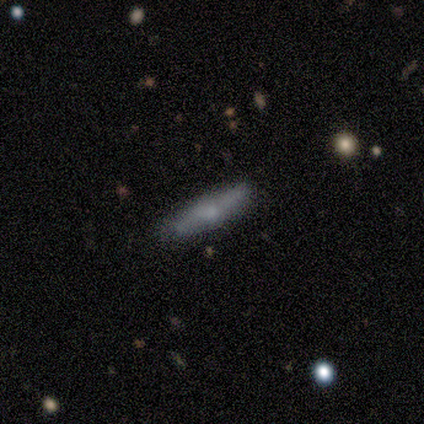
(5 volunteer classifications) Smooth or featured?
  - smooth: 80% *
  - featured or disk: 20%
  - star or artifact: 0%
How rounded?
  - cigar-shaped: 75% *
  - in between: 25%
  - round: 0%
Merging?
  - none: 80% *
  - minor disturbance: 20%
  - major disturbance: 0%
  - merger: 0%